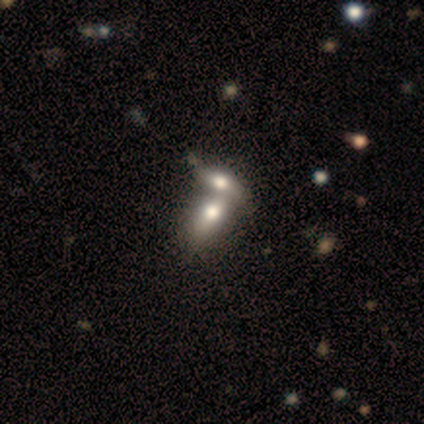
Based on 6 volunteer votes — smooth 83%, featured or disk 17%, star or artifact 0%. Down the decision tree: how rounded — in between (100%); merging — merger (67%).